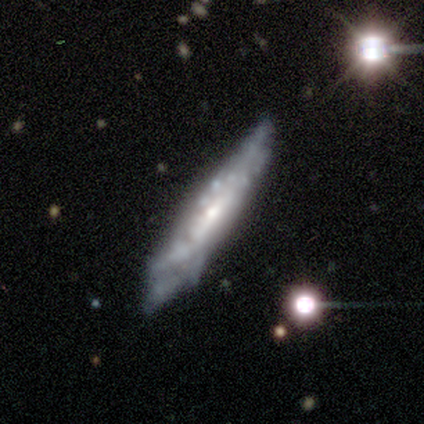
A featured or disk galaxy (85%) viewed edge-on (58%) with a rounded central bulge (47%).

Vote fractions:
- Smooth or featured? featured or disk: 85% / smooth: 10% / star or artifact: 5%
- Edge-on disk? yes: 58% / no: 42%
- Edge-on bulge? rounded: 47% / none: 42% / boxy: 11%
- Merging? none: 59% / minor disturbance: 24% / major disturbance: 8% / merger: 8%